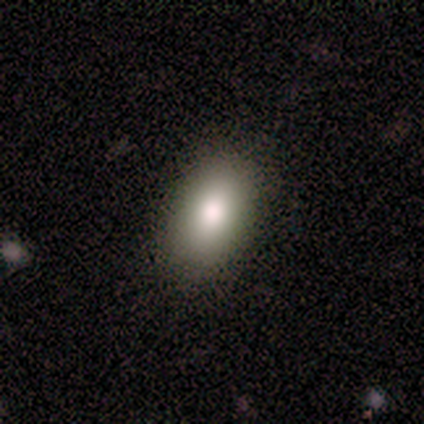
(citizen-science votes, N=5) Smooth or featured: smooth — 100%
How rounded: in between — 100%
Merging: none — 80% (minor disturbance — 20%)